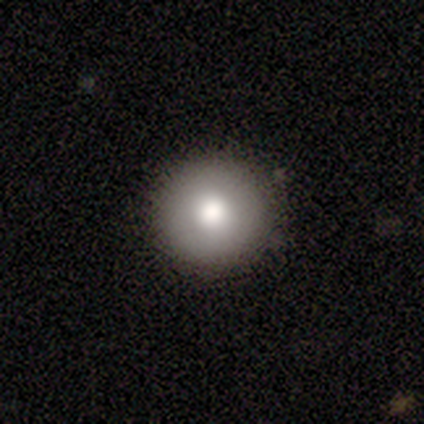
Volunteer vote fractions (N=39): smooth 82%, featured or disk 13%, star or artifact 5%. Down the decision tree: how rounded — round (100%); merging — none (59%).